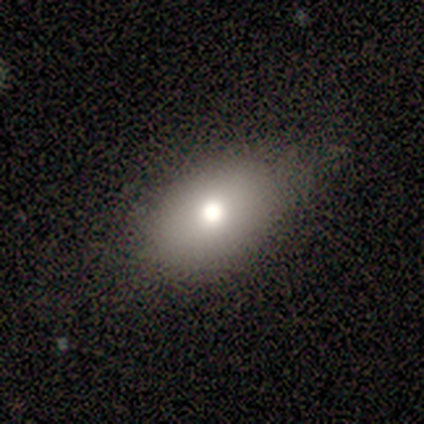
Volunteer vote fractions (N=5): A smooth galaxy with no disk features (100%) that is in between round and cigar-shaped (80%). Merging: none (80%).